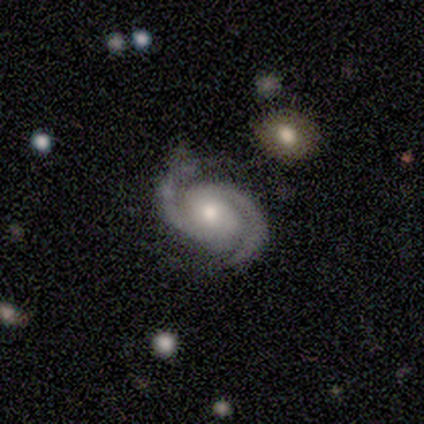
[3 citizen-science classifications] Smooth or featured? featured or disk (100%)
Edge-on disk? no (100%)
Bar? weak (67%)
Spiral arms? yes (100%)
Spiral winding? tight (100%)
Spiral arm count? 2 (100%)
Bulge size? small (67%)
Merging? none (100%)